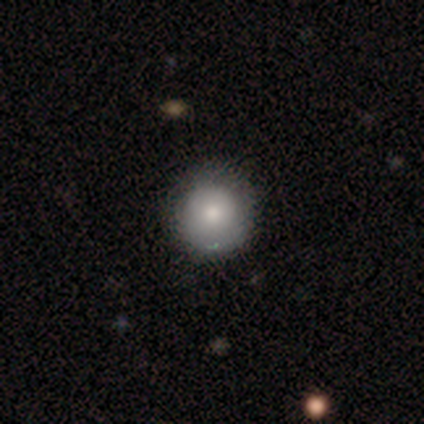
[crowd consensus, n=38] Smooth or featured? smooth (87%)
How rounded? round (97%)
Merging? none (62%)